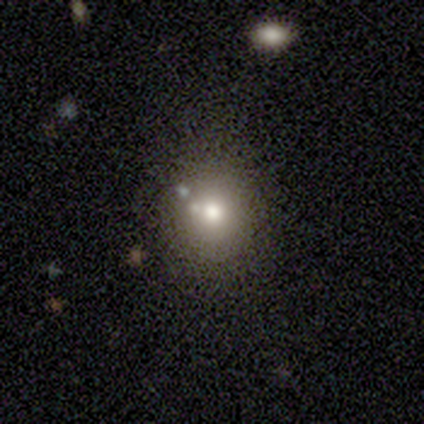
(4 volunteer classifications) Smooth or featured? smooth (50%, tied with star or artifact)
How rounded? round (50%, tied with in between)
Merging? none (100%)